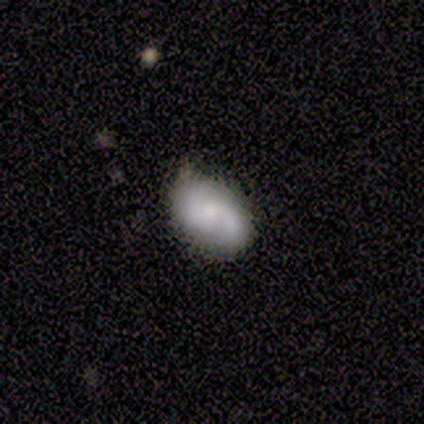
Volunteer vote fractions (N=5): Smooth or featured?
  - featured or disk: 80% *
  - smooth: 20%
  - star or artifact: 0%
Edge-on disk?
  - no: 100% *
  - yes: 0%
Bar?
  - no: 100% *
  - strong: 0%
  - weak: 0%
Spiral arms?
  - yes: 100% *
  - no: 0%
Spiral winding?
  - medium: 75% *
  - tight: 25%
  - loose: 0%
Spiral arm count?
  - 2: 100% *
  - 1: 0%
  - 3: 0%
  - 4: 0%
  - more than 4: 0%
  - can't tell: 0%
Bulge size?
  - moderate: 50% * (tied)
  - small: 50% * (tied)
  - dominant: 0%
  - large: 0%
  - none: 0%
Merging?
  - none: 60% *
  - minor disturbance: 40%
  - major disturbance: 0%
  - merger: 0%